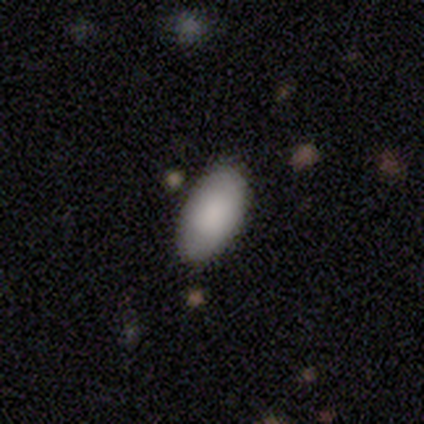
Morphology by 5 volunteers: type=smooth (100%); roundness=in between (100%); merging=none (100%).